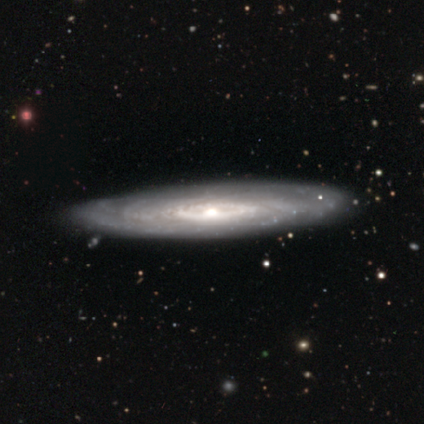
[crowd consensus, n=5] Smooth or featured: featured or disk — 100%
Edge-on disk: no — 80% (yes — 20%)
Bar: no — 100%
Spiral arms: yes — 100%
Spiral winding: tight — 75% (medium — 25%)
Spiral arm count: can't tell — 100%
Bulge size: moderate — 75% (small — 25%)
Merging: none — 100%